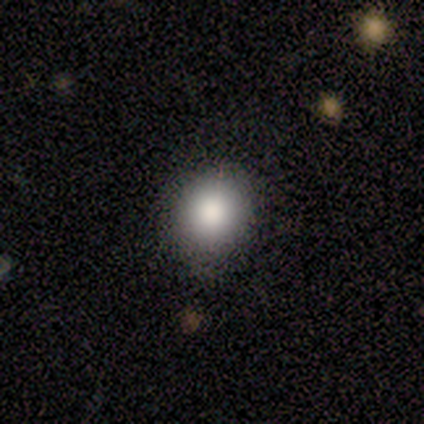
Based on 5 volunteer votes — Morphology: type=smooth (80%); roundness=round (100%); merging=none (80%).